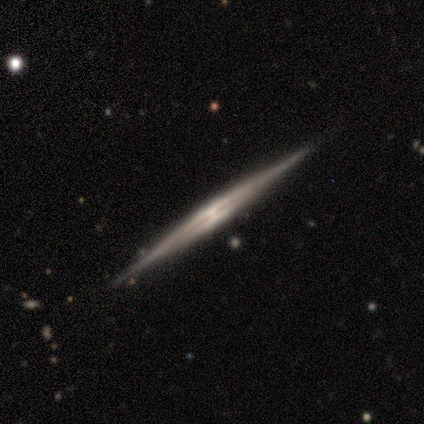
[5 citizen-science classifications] A featured or disk galaxy (80%) viewed edge-on (100%) with no central bulge (75%).

Vote fractions:
- Smooth or featured? featured or disk: 80% / smooth: 20% / star or artifact: 0%
- Edge-on disk? yes: 100% / no: 0%
- Edge-on bulge? none: 75% / rounded: 25% / boxy: 0%
- Merging? none: 100% / minor disturbance: 0% / major disturbance: 0% / merger: 0%